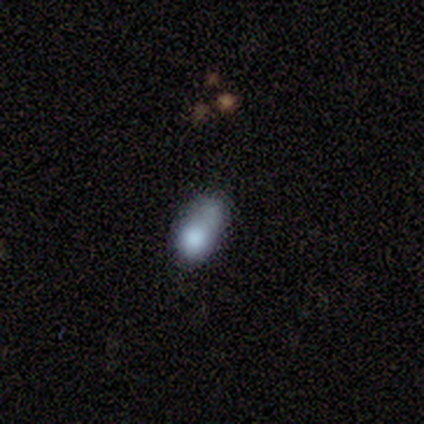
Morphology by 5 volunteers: smooth_or_featured: smooth (p=0.60) [alt: featured or disk p=0.40]
how_rounded: in between (p=1.00)
merging: merger (p=0.60) [alt: none p=0.20]